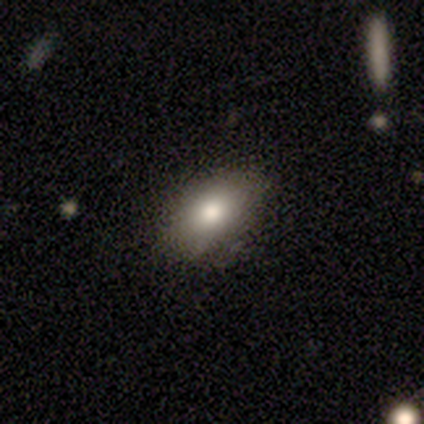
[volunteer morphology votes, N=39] Smooth or featured? smooth (90%)
How rounded? in between (89%)
Merging? none (50%)